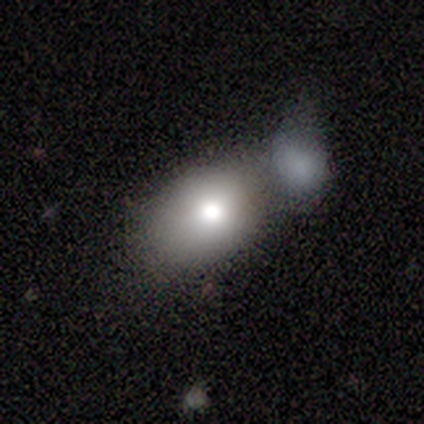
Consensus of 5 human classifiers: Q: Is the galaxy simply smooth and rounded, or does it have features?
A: smooth — 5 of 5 (100%).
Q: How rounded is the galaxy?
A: in between — 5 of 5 (100%).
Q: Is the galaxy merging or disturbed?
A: merger — 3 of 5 (60%).